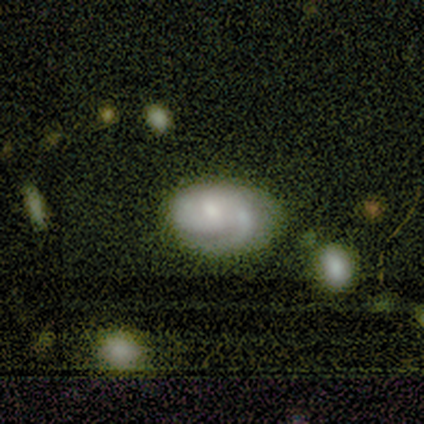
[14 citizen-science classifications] Volunteers were most divided on "spiral arm count" (2-way tie): 1: 38%, 2: 38%, can't tell: 25%, 3: 0%, 4: 0%, more than 4: 0%. More confident: edge-on disk — no (100%); spiral arms — yes (89%); smooth or featured — featured or disk (64%); bar — no (56%); bulge size — small (56%); merging — none (50%); spiral winding — tight (50%).